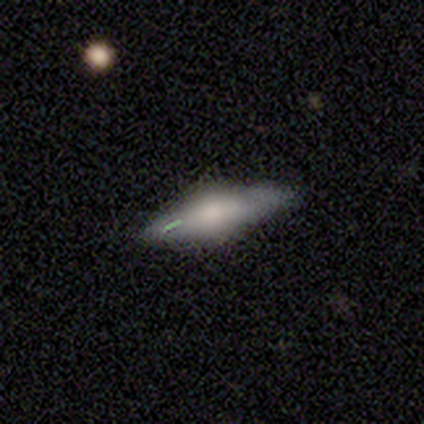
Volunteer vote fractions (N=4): A featured or disk galaxy (100%) viewed edge-on (100%) with a rounded central bulge (75%).

Vote fractions:
- Smooth or featured? featured or disk: 100% / smooth: 0% / star or artifact: 0%
- Edge-on disk? yes: 100% / no: 0%
- Edge-on bulge? rounded: 75% / boxy: 25% / none: 0%
- Merging? none: 50% (tied) / minor disturbance: 50% (tied) / major disturbance: 0% / merger: 0%